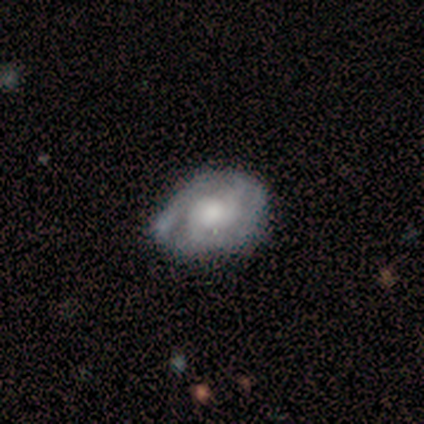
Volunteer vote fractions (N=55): Q: Smooth or featured?
A: featured or disk (82%); runner-up: smooth (18%)
Q: Edge-on disk?
A: no (98%); runner-up: yes (2%)
Q: Bar?
A: no (77%); runner-up: weak (18%)
Q: Spiral arms?
A: yes (95%); runner-up: no (5%)
Q: Spiral winding?
A: tight (57%); runner-up: medium (29%)
Q: Spiral arm count?
A: 2 (57%); runner-up: can't tell (21%)
Q: Bulge size?
A: moderate (61%); runner-up: large (16%)
Q: Merging?
A: none (62%); runner-up: minor disturbance (31%)